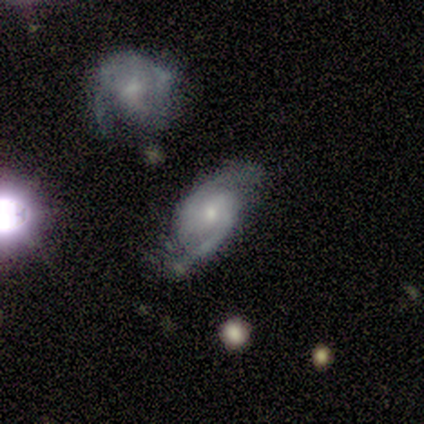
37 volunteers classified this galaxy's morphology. Smooth or featured: featured or disk — 84% (star or artifact — 11%)
Edge-on disk: no — 97% (yes — 3%)
Bar: no — 53% (weak — 40%)
Spiral arms: yes — 100%
Spiral winding: medium — 50% (tight — 37%)
Spiral arm count: 2 — 97% (can't tell — 3%)
Bulge size: small — 63% (moderate — 33%)
Merging: none — 73% (minor disturbance — 21%)